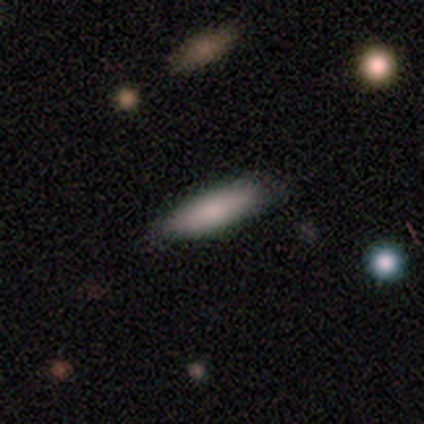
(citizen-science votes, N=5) This appears to be a smooth galaxy with no disk features (60%) that is in between round and cigar-shaped (67%). Merging: none (80%).